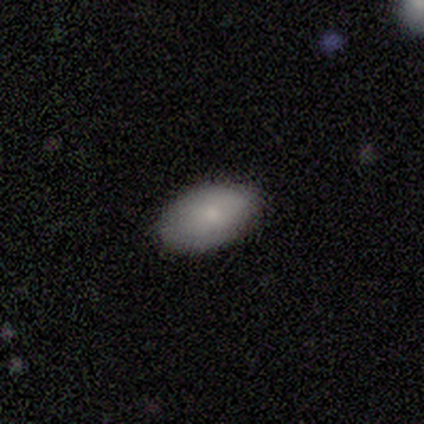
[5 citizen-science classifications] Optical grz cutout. It shows a smooth galaxy with no disk features (100%) that is in between round and cigar-shaped (100%). Merging: none (100%).